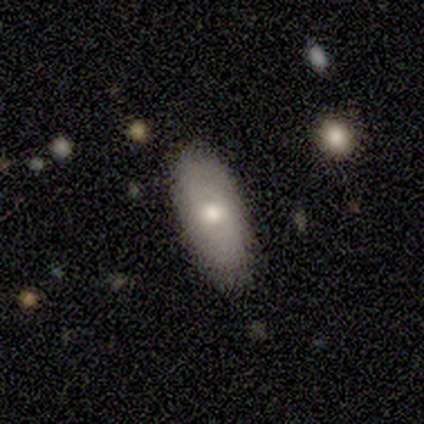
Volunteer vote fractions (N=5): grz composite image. It shows a smooth galaxy with no disk features (80%) that is in between round and cigar-shaped (75%). Merging: none (100%).